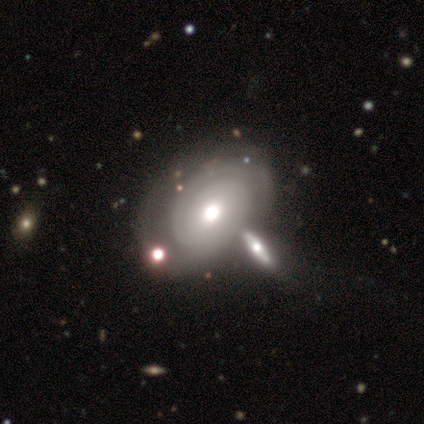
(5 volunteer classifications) Smooth or featured?
  - featured or disk: 60% *
  - smooth: 20%
  - star or artifact: 20%
Edge-on disk?
  - no: 100% *
  - yes: 0%
Bar?
  - no: 100% *
  - strong: 0%
  - weak: 0%
Spiral arms?
  - no: 67% *
  - yes: 33%
Bulge size?
  - small: 67% *
  - large: 33%
  - dominant: 0%
  - moderate: 0%
  - none: 0%
Merging?
  - none: 50% *
  - major disturbance: 25%
  - merger: 25%
  - minor disturbance: 0%